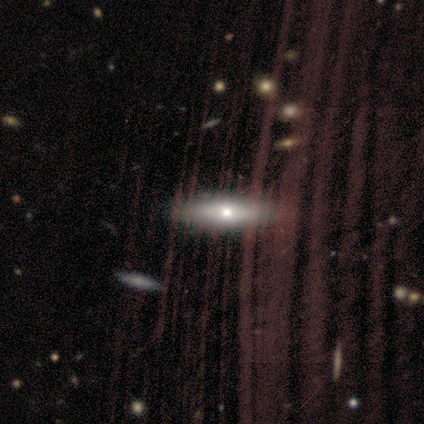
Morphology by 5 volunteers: Smooth or featured?
  - featured or disk: 60% *
  - smooth: 40%
  - star or artifact: 0%
Edge-on disk?
  - yes: 67% *
  - no: 33%
Edge-on bulge?
  - rounded: 100% *
  - boxy: 0%
  - none: 0%
Merging?
  - none: 80% *
  - minor disturbance: 20%
  - major disturbance: 0%
  - merger: 0%